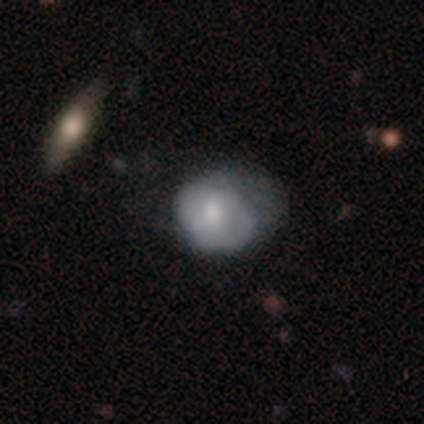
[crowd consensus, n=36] Smooth or featured?
  - smooth: 69% *
  - featured or disk: 22%
  - star or artifact: 8%
How rounded?
  - round: 72% *
  - in between: 28%
  - cigar-shaped: 0%
Merging?
  - none: 45% *
  - minor disturbance: 36%
  - major disturbance: 18%
  - merger: 0%